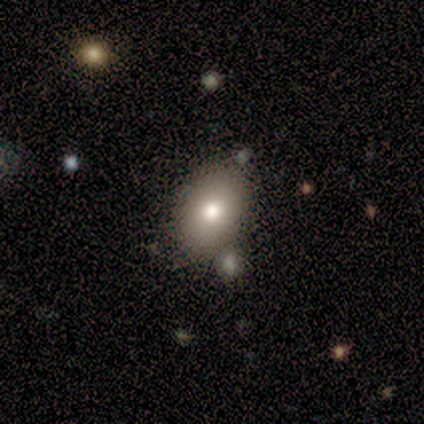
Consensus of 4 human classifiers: A smooth galaxy with no disk features (50%) that is in between round and cigar-shaped (100%).

Vote fractions:
- Smooth or featured? smooth: 50% / featured or disk: 25% / star or artifact: 25%
- How rounded? in between: 100% / round: 0% / cigar-shaped: 0%
- Merging? none: 67% / minor disturbance: 33% / major disturbance: 0% / merger: 0%